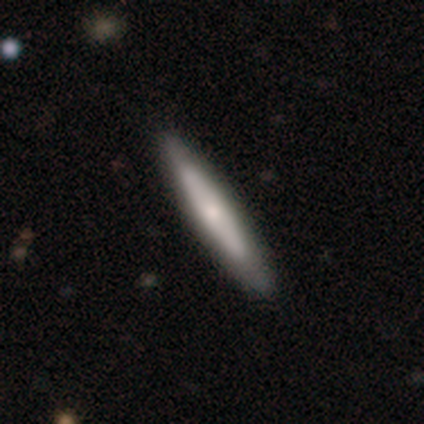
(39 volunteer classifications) Smooth or featured? smooth (56%)
How rounded? cigar-shaped (95%)
Merging? none (90%)